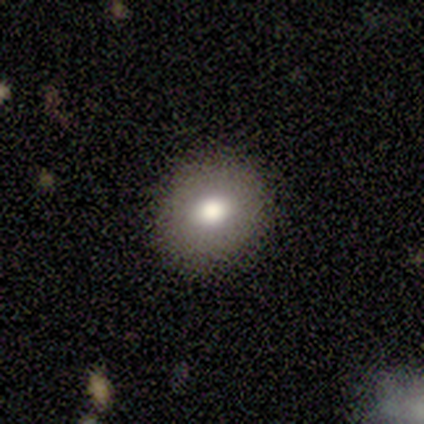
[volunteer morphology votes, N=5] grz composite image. It shows a smooth galaxy with no disk features (80%) that is round (75%). Merging: none (100%).